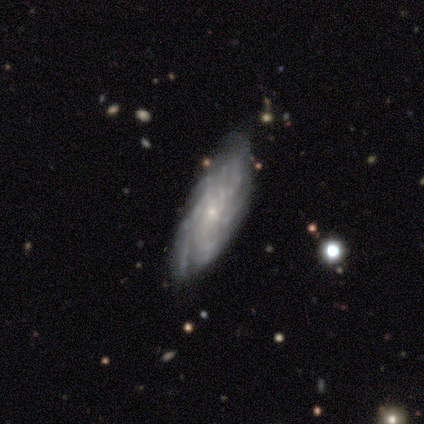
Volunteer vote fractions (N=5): smooth-or-featured: featured or disk: 80% | smooth: 20% | star or artifact: 0%
  disk-edge-on: no: 75% | yes: 25%
    bar: no: 100% | strong: 0% | weak: 0%
    has-spiral-arms: yes: 100% | no: 0%
      spiral-winding: tight: 33% (tied) | medium: 33% (tied) | loose: 33% (tied)
      spiral-arm-count: can't tell: 100% | 1: 0% | 2: 0% | 3: 0% | 4: 0% | more than 4: 0%
    bulge-size: small: 100% | dominant: 0% | large: 0% | moderate: 0% | none: 0%
  merging: none: 100% | minor disturbance: 0% | major disturbance: 0% | merger: 0%